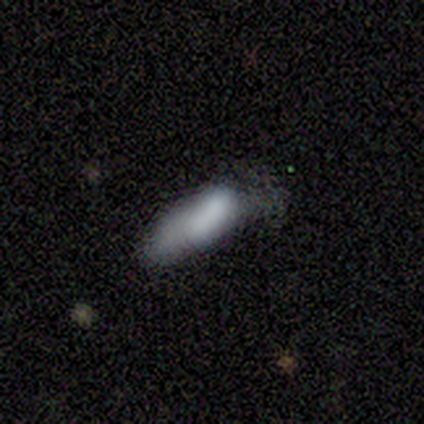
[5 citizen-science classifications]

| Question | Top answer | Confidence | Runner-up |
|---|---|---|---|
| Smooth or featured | smooth | 60% | star or artifact (40%) |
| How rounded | cigar-shaped | 67% | in between (33%) |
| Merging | none | 100% | — |